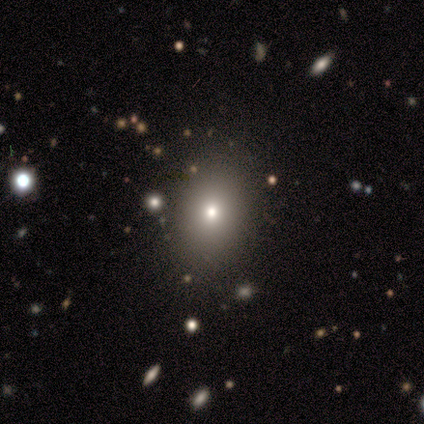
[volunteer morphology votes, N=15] A smooth galaxy with no disk features (60%) that is in between round and cigar-shaped (56%). Merging: none (83%).